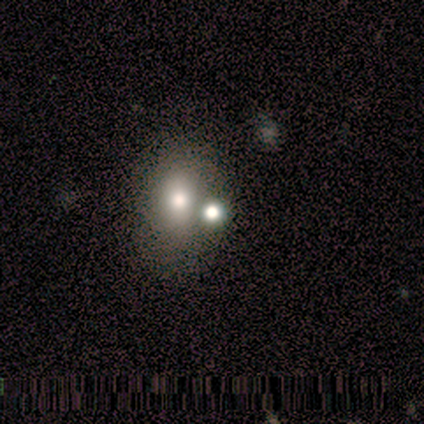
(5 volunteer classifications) smooth 60%, star or artifact 40%, featured or disk 0%. Down the decision tree: how rounded — in between (67%); merging — merger (67%).